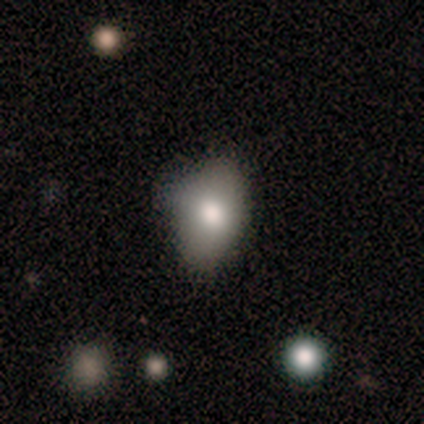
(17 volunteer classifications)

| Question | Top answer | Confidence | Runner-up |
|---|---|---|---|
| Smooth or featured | smooth | 71% | featured or disk (18%) |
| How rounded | in between | 75% | round (25%) |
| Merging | minor disturbance | 47% | none (40%) |